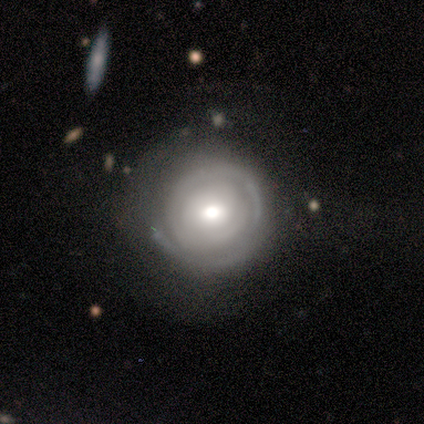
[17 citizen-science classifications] Smooth or featured? 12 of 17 (71%) said featured or disk. Edge-on disk? 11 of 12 (92%) said no. Bar? 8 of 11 (73%) said no. Spiral arms? 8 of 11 (73%) said yes. Spiral winding? 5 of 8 (62%) said tight. Spiral arm count? 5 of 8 (62%) said can't tell. Bulge size? 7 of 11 (64%) said moderate. Merging? 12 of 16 (75%) said none.